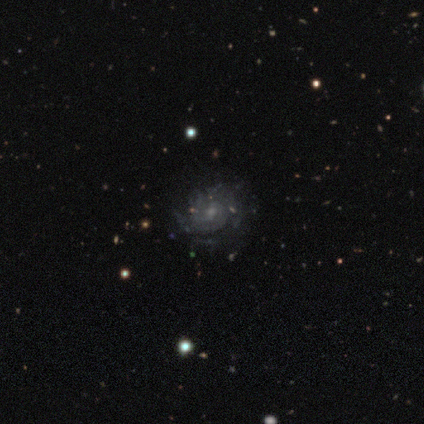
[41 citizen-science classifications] Q: Smooth or featured?
A: featured or disk (93%); runner-up: smooth (7%)
Q: Edge-on disk?
A: no (100%)
Q: Bar?
A: no (63%); runner-up: weak (37%)
Q: Spiral arms?
A: yes (95%); runner-up: no (5%)
Q: Spiral winding?
A: tight (61%); runner-up: medium (33%)
Q: Spiral arm count?
A: can't tell (50%); runner-up: 2 (17%)
Q: Bulge size?
A: small (68%); runner-up: moderate (21%)
Q: Merging?
A: none (68%); runner-up: minor disturbance (17%)